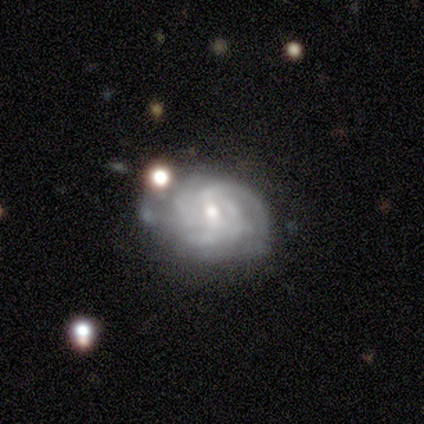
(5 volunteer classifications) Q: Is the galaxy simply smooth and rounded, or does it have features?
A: featured or disk — 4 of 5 (80%).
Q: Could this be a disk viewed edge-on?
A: no — 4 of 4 (100%).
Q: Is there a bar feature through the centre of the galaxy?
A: weak — 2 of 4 (50%, tied with no).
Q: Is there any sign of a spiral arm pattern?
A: yes — 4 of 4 (100%).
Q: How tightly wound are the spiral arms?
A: tight — 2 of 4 (50%).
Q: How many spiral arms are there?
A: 2 — 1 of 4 (25%, tied with 3, 4 and more than 4).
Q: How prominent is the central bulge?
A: small — 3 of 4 (75%).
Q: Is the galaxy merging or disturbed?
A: none — 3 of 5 (60%).